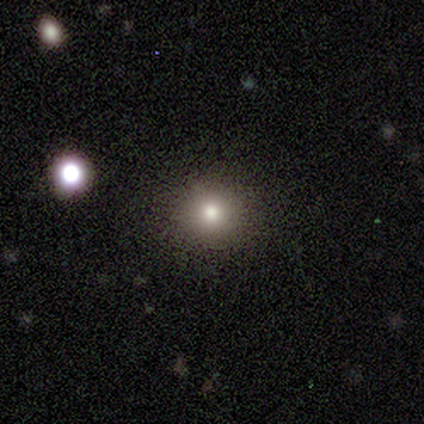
Consensus on every question: smooth or featured — smooth (100%); how rounded — round (100%); merging — none (100%).